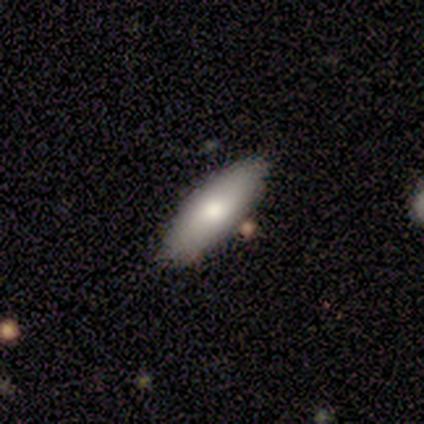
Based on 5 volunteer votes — smooth_or_featured: smooth (p=0.60) [alt: featured or disk p=0.20]
how_rounded: cigar-shaped (p=0.67) [alt: in between p=0.33]
merging: none (p=1.00)